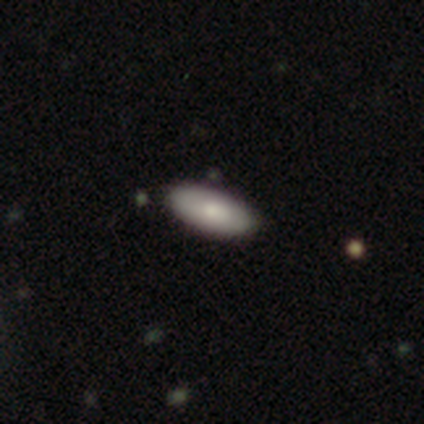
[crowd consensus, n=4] Smooth or featured? 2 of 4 (50%) said featured or disk. Edge-on disk? 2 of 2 (100%) said no. Bar? 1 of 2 (50%, tied with no) said weak. Spiral arms? 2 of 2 (100%) said no. Bulge size? 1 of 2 (50%, tied with small) said dominant. Merging? 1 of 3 (33%, tied with minor disturbance and major disturbance) said none.